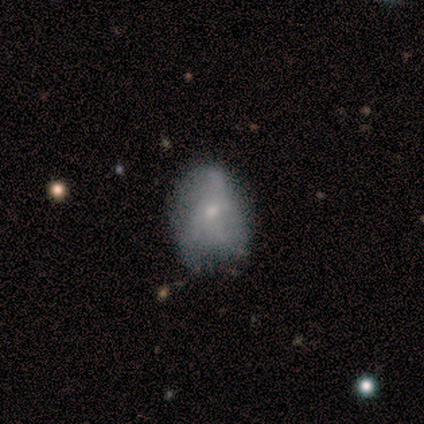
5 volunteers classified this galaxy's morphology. Smooth or featured? smooth (80%)
How rounded? in between (75%)
Merging? none (40%, tied with minor disturbance)